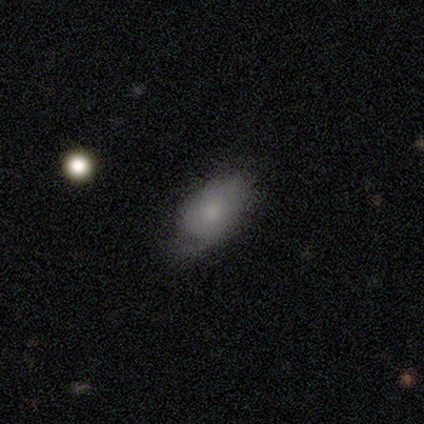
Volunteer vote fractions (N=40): smooth_or_featured: smooth (p=0.72) [alt: featured or disk p=0.28]
how_rounded: in between (p=1.00)
merging: none (p=0.33) [alt: minor disturbance p=0.25]